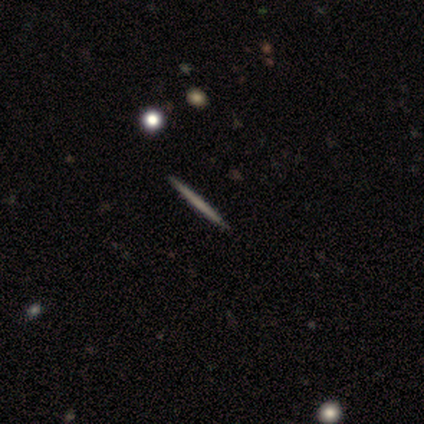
Volunteers were most divided on "smooth or featured": featured or disk: 80%, smooth: 20%, star or artifact: 0%. More confident: edge-on disk — yes (100%); edge-on bulge — none (100%); merging — none (80%).